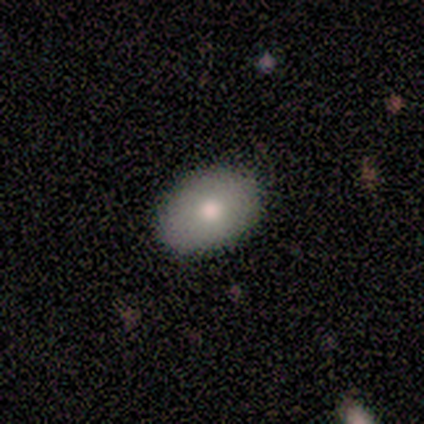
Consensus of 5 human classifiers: This appears to be a smooth galaxy with no disk features (100%) that is in between round and cigar-shaped (80%). Merging: none (100%).